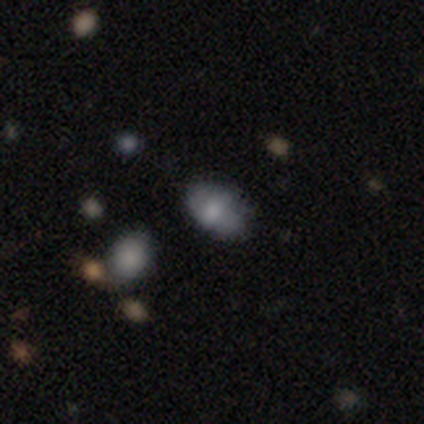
A smooth galaxy with no disk features (60%) that is in between round and cigar-shaped (100%). Merging: minor disturbance (60%).